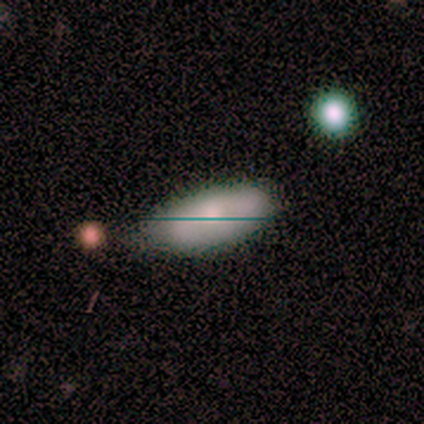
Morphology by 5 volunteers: Smooth or featured?
  - smooth: 40% * (tied)
  - featured or disk: 40% * (tied)
  - star or artifact: 20%
How rounded?
  - in between: 100% *
  - round: 0%
  - cigar-shaped: 0%
Merging?
  - none: 75% *
  - minor disturbance: 25%
  - major disturbance: 0%
  - merger: 0%